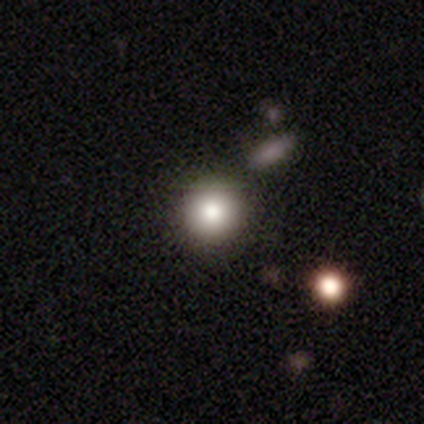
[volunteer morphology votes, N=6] This appears to be a smooth galaxy with no disk features (83%) that is round (100%). Merging: none (100%).